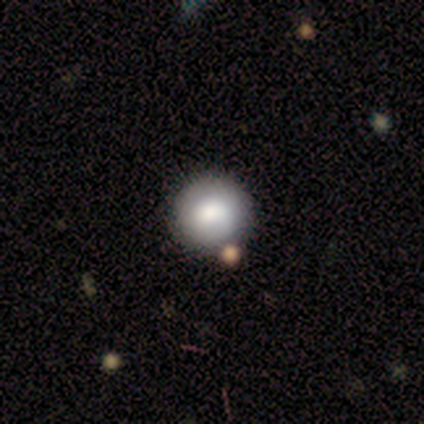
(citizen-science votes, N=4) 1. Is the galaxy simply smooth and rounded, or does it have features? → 75% smooth, 25% featured or disk, 0% star or artifact.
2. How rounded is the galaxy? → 100% round, 0% in between, 0% cigar-shaped.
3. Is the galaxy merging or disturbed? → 100% none, 0% minor disturbance, 0% major disturbance, 0% merger.